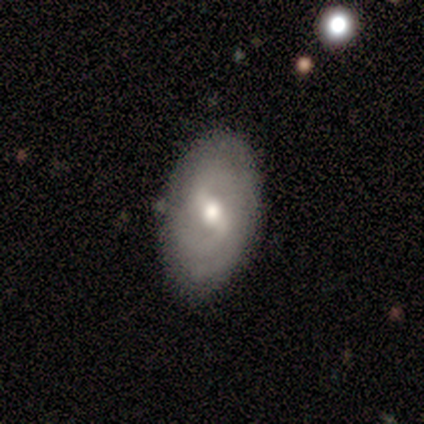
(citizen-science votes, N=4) Q: Smooth or featured?
A: featured or disk (50%); runner-up: smooth (25%)
Q: Edge-on disk?
A: no (100%)
Q: Bar?
A: weak (100%)
Q: Spiral arms?
A: no (100%)
Q: Bulge size?
A: moderate (100%)
Q: Merging?
A: none (100%)